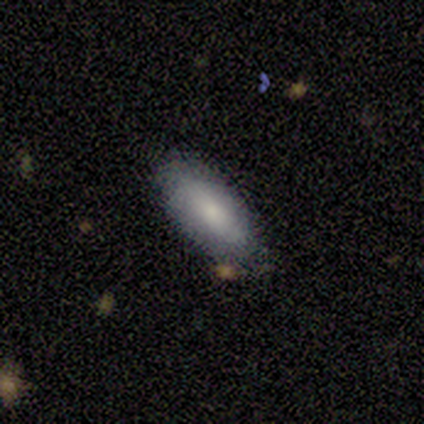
Volunteers were most divided on "how rounded" (2-way tie): in between: 50%, cigar-shaped: 50%, round: 0%. More confident: smooth or featured — smooth (80%); merging — none (80%).